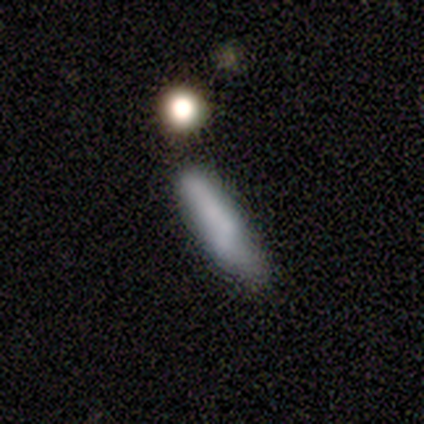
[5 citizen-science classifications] smooth_or_featured: smooth (p=0.60) [alt: featured or disk p=0.20]
how_rounded: in between (p=1.00)
merging: minor disturbance (p=1.00)